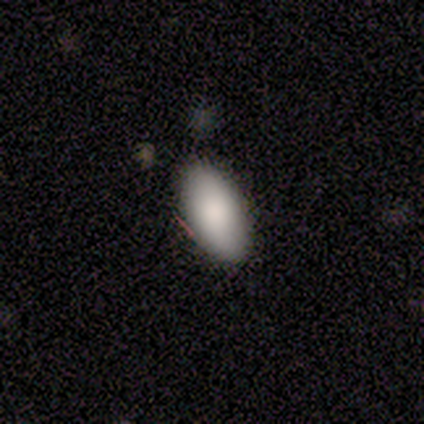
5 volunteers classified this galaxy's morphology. Consensus on every question: smooth or featured — smooth (100%); how rounded — in between (100%); merging — none (100%).